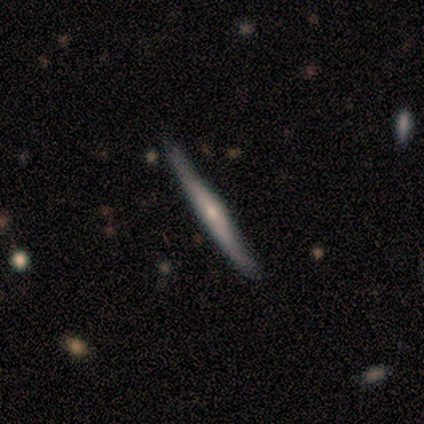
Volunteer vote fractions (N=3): Overall: smooth (100%). How rounded: cigar-shaped (100%). Merging: minor disturbance (67%; none 33%).